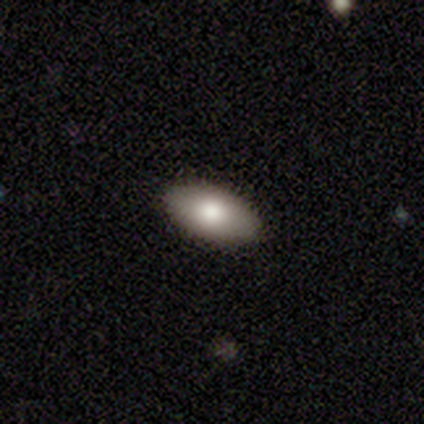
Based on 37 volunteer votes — smooth-or-featured: smooth: 89% | featured or disk: 8% | star or artifact: 3%
  how-rounded: in between: 85% | round: 12% | cigar-shaped: 3%
  merging: none: 92% | minor disturbance: 6% | major disturbance: 3% | merger: 0%